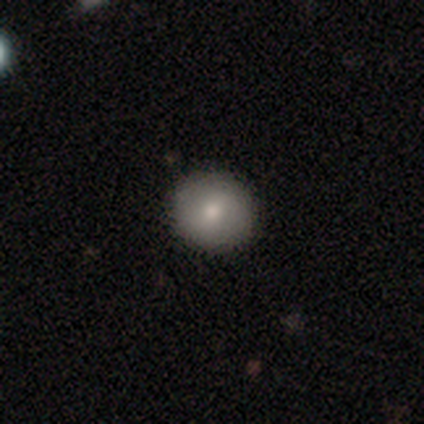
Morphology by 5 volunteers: Smooth or featured? 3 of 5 (60%) said featured or disk. Edge-on disk? 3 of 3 (100%) said no. Bar? 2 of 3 (67%) said strong. Spiral arms? 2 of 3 (67%) said no. Bulge size? 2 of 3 (67%) said moderate. Merging? 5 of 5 (100%) said none.